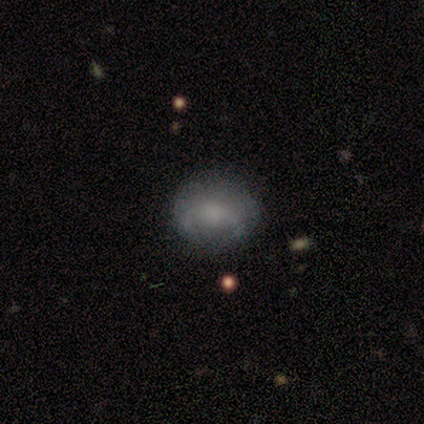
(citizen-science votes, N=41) Q: Smooth or featured?
A: smooth (56%); runner-up: featured or disk (34%)
Q: How rounded?
A: round (61%); runner-up: in between (39%)
Q: Merging?
A: none (65%); runner-up: minor disturbance (32%)